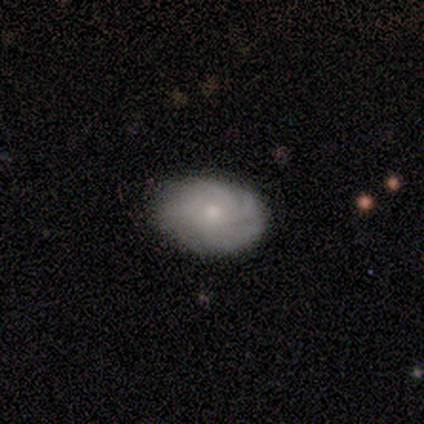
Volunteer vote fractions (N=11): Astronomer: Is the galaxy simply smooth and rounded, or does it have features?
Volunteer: featured or disk — 91%.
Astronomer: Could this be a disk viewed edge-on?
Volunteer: no — 100%.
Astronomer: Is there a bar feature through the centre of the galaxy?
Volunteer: no — 90%.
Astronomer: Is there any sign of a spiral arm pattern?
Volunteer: yes — 100%.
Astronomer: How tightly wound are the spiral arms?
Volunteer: tight — 70%.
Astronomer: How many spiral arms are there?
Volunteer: can't tell — 40% (runner-up: 4, 30%).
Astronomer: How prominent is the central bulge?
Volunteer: moderate — 40%, tied with small at 40%.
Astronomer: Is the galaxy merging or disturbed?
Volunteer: none — 91%.